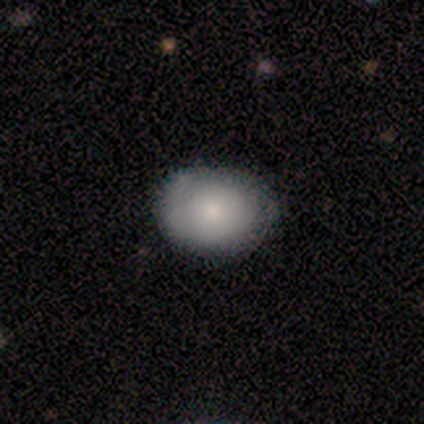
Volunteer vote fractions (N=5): Smooth or featured? 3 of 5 (60%) said smooth. How rounded? 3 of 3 (100%) said in between. Merging? 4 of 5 (80%) said none.